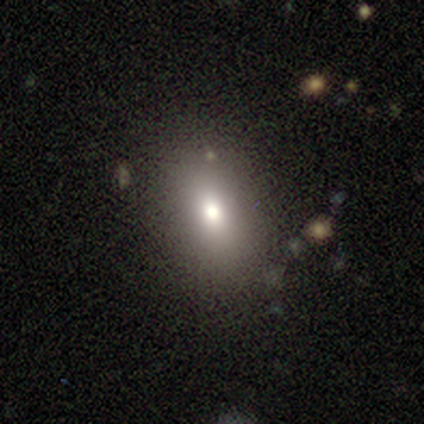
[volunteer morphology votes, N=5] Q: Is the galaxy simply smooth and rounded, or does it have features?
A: smooth — 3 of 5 (60%).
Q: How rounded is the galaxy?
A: in between — 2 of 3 (67%).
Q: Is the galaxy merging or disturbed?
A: minor disturbance — 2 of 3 (67%).